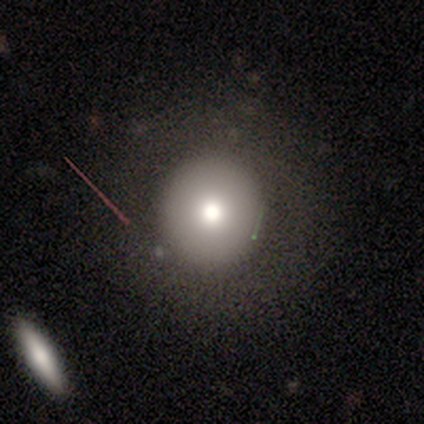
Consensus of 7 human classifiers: smooth_or_featured: smooth (p=0.43) [tied with: featured or disk p=0.43]
how_rounded: round (p=0.67) [alt: in between p=0.33]
merging: none (p=0.67) [alt: minor disturbance p=0.33]